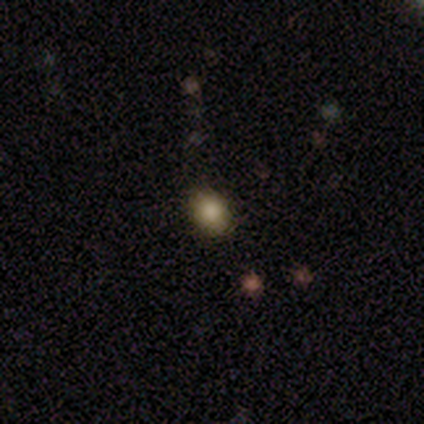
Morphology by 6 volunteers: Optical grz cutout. It shows a smooth galaxy with no disk features (67%) that is round (50%, tied with in between). Merging: none (75%).